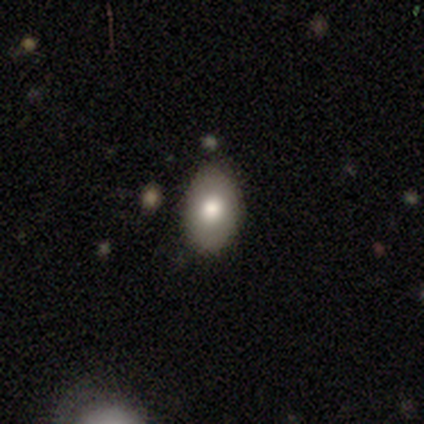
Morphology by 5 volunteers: Smooth or featured? smooth (100%)
How rounded? in between (80%)
Merging? none (80%)